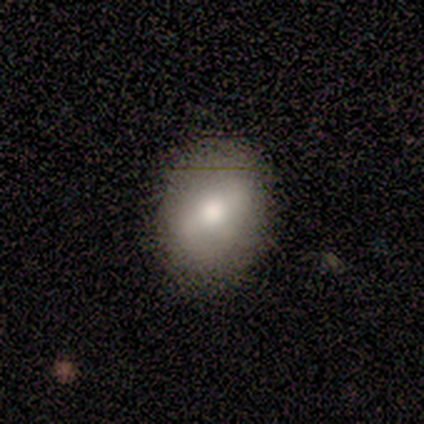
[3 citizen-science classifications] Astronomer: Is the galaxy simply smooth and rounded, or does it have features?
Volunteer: smooth — 100%.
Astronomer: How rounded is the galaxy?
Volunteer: in between — 67%.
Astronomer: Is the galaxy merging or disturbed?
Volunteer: none — 67%.